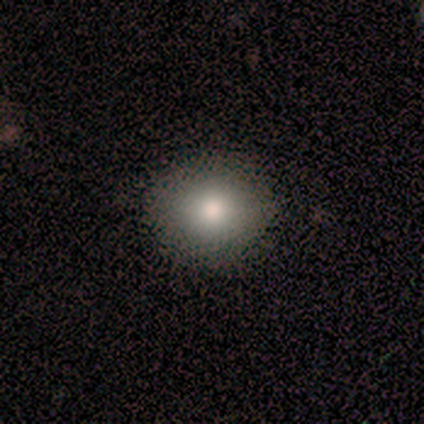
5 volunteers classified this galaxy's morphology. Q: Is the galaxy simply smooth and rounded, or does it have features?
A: smooth — 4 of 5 (80%).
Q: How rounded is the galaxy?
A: round — 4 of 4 (100%).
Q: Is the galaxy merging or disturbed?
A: minor disturbance — 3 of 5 (60%).